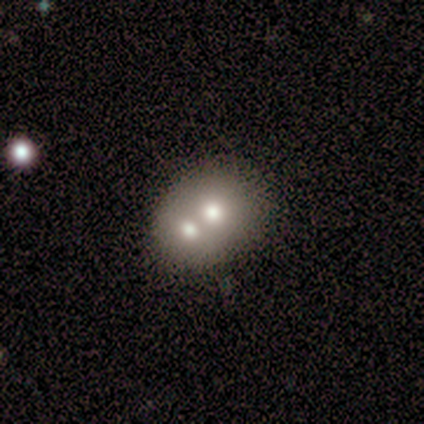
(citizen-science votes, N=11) Q: Smooth or featured?
A: smooth (73%); runner-up: featured or disk (27%)
Q: How rounded?
A: round (50%); tied with: in between (50%)
Q: Merging?
A: merger (82%); runner-up: none (18%)